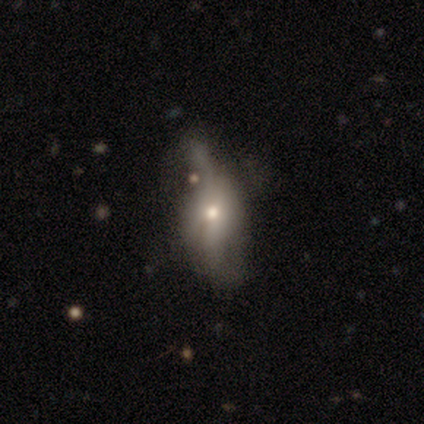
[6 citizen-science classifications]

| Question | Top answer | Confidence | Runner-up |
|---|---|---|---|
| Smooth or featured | featured or disk | 50% | smooth (33%) |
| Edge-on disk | no | 100% | — |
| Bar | no | 67% | strong (33%) |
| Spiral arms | yes | 100% | — |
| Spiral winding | loose | 100% | — |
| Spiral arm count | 2 | 100% | — |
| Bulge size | moderate | 100% | — |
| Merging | minor disturbance | 60% | none (40%) |